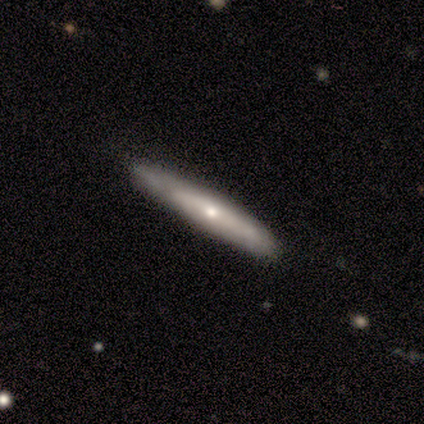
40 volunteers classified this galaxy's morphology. Volunteers were most divided on "smooth or featured": featured or disk: 55%, smooth: 45%, star or artifact: 0%. Remaining: edge-on disk — yes (77%); edge-on bulge — rounded (76%); merging — none (38%).